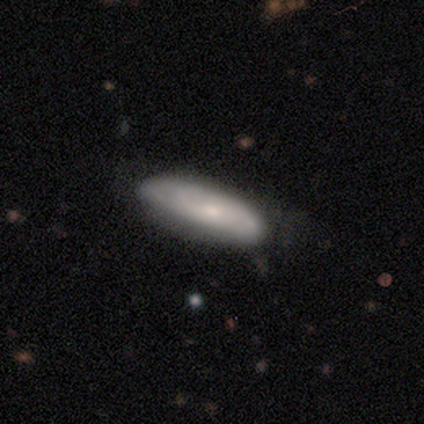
A smooth galaxy with no disk features (54%) that is cigar-shaped (53%).

Vote fractions:
- Smooth or featured? smooth: 54% / featured or disk: 42% / star or artifact: 3%
- How rounded? cigar-shaped: 53% / in between: 47% / round: 0%
- Merging? none: 77% / minor disturbance: 14% / major disturbance: 9% / merger: 0%